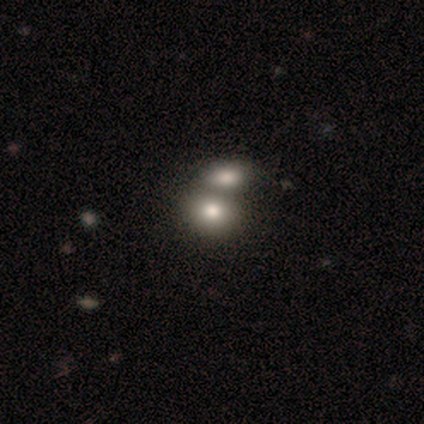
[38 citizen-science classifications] A smooth galaxy with no disk features (71%) that is in between round and cigar-shaped (52%).

Vote fractions:
- Smooth or featured? smooth: 71% / featured or disk: 26% / star or artifact: 3%
- How rounded? in between: 52% / round: 48% / cigar-shaped: 0%
- Merging? merger: 70% / none: 16% / major disturbance: 5% / minor disturbance: 0%